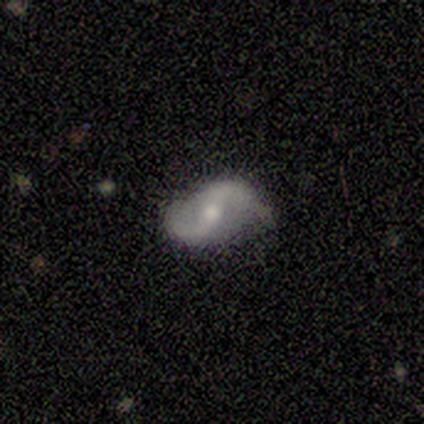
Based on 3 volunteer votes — This appears to be a smooth galaxy with no disk features (67%) that is in between round and cigar-shaped (100%). Merging: none (100%).